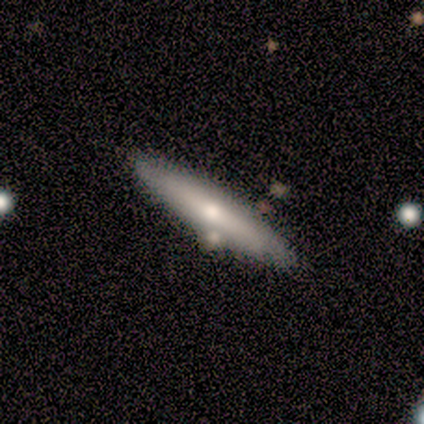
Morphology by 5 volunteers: smooth_or_featured: smooth (p=0.80) [alt: featured or disk p=0.20]
how_rounded: cigar-shaped (p=0.75) [alt: in between p=0.25]
merging: none (p=0.80) [alt: minor disturbance p=0.20]